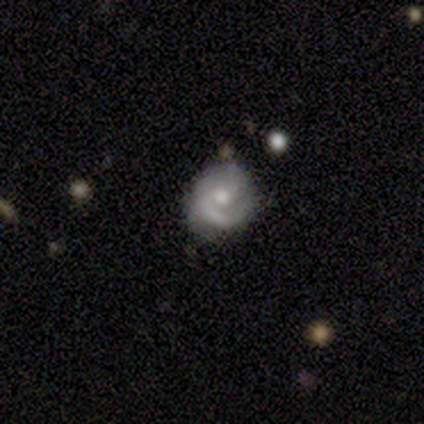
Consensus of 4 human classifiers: A smooth galaxy with no disk features (50%, tied with featured or disk) that is round (100%).

Vote fractions:
- Smooth or featured? smooth: 50% (tied) / featured or disk: 50% (tied) / star or artifact: 0%
- How rounded? round: 100% / in between: 0% / cigar-shaped: 0%
- Merging? none: 50% / minor disturbance: 25% / major disturbance: 25% / merger: 0%